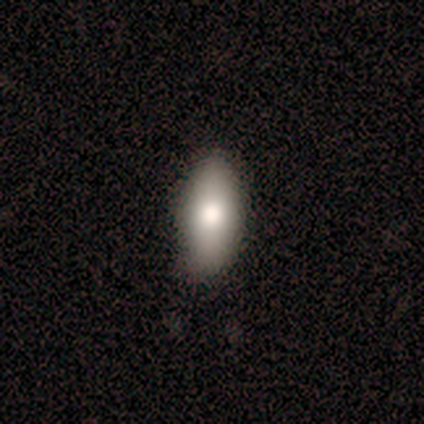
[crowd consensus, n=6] Smooth or featured? 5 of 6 (83%) said smooth. How rounded? 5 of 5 (100%) said in between. Merging? 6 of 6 (100%) said none.